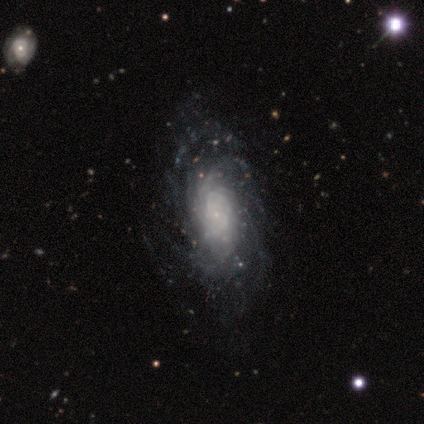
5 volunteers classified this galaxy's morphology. Smooth or featured? featured or disk (100%)
Edge-on disk? no (100%)
Bar? no (100%)
Spiral arms? yes (100%)
Spiral winding? tight (100%)
Spiral arm count? can't tell (60%)
Bulge size? small (80%)
Merging? none (60%)